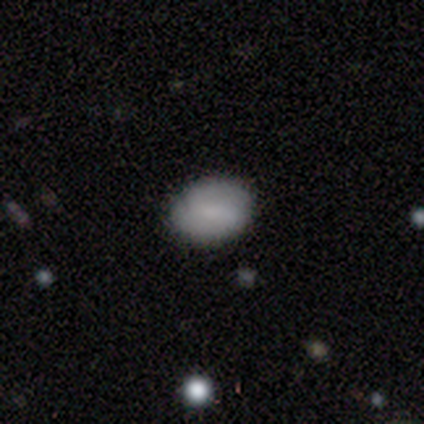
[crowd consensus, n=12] A featured or disk galaxy (67%) with a weak bar (57%), 2 (50%) medium (75%) spiral arms (57%) and no central bulge (43%).

Vote fractions:
- Smooth or featured? featured or disk: 67% / smooth: 33% / star or artifact: 0%
- Edge-on disk? no: 88% / yes: 12%
- Bar? weak: 57% / no: 43% / strong: 0%
- Spiral arms? yes: 57% / no: 43%
- Spiral winding? medium: 75% / tight: 25% / loose: 0%
- Spiral arm count? 2: 50% / 1: 25% / can't tell: 25% / 3: 0% / 4: 0% / more than 4: 0%
- Bulge size? none: 43% / moderate: 29% / small: 29% / dominant: 0% / large: 0%
- Merging? none: 92% / merger: 8% / minor disturbance: 0% / major disturbance: 0%